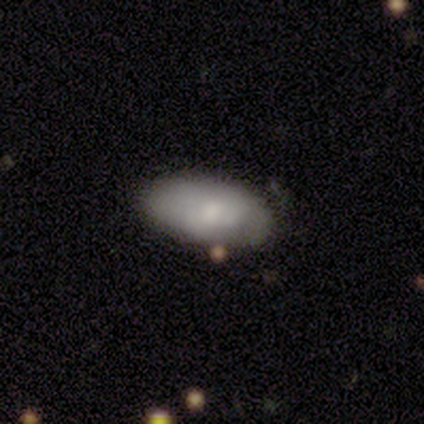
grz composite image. It shows a smooth galaxy with no disk features (88%) that is in between round and cigar-shaped (100%). Merging: none (81%).